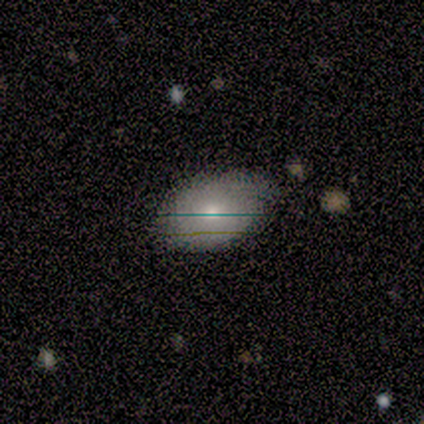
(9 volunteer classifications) Smooth or featured: smooth — 89% (featured or disk — 11%)
How rounded: in between — 88% (round — 12%)
Merging: none — 56% (minor disturbance — 33%)